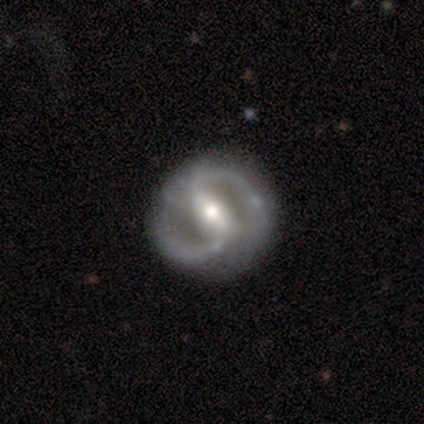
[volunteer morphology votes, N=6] smooth_or_featured: featured or disk (p=1.00)
disk_edge_on: no (p=1.00)
bar: strong (p=0.67) [alt: weak p=0.33]
has_spiral_arms: yes (p=1.00)
spiral_winding: tight (p=0.33) [tied with: medium p=0.33, loose p=0.33]
spiral_arm_count: 2 (p=0.67) [alt: 1 p=0.17]
bulge_size: moderate (p=0.67) [alt: small p=0.33]
merging: none (p=0.83) [alt: major disturbance p=0.17]